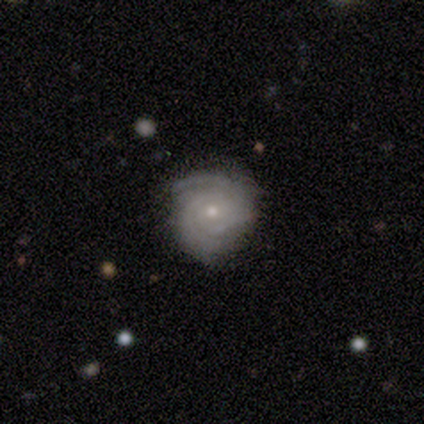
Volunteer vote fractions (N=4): smooth-or-featured: featured or disk: 100% | smooth: 0% | star or artifact: 0%
  disk-edge-on: no: 100% | yes: 0%
    bar: no: 75% | weak: 25% | strong: 0%
    has-spiral-arms: yes: 100% | no: 0%
      spiral-winding: tight: 50% | medium: 25% | loose: 25%
      spiral-arm-count: can't tell: 50% | 2: 25% | 3: 25% | 1: 0% | 4: 0% | more than 4: 0%
    bulge-size: moderate: 50% (tied) | small: 50% (tied) | dominant: 0% | large: 0% | none: 0%
  merging: none: 100% | minor disturbance: 0% | major disturbance: 0% | merger: 0%